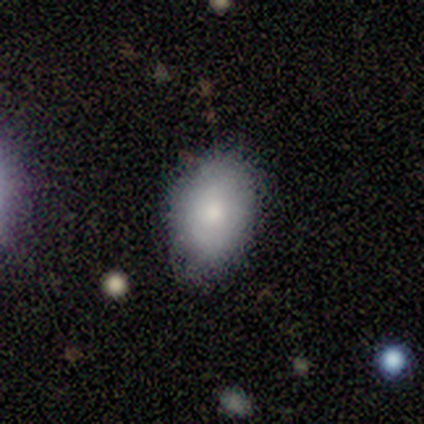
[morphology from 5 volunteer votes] A smooth galaxy with no disk features (80%) that is in between round and cigar-shaped (100%). Merging: none (100%).